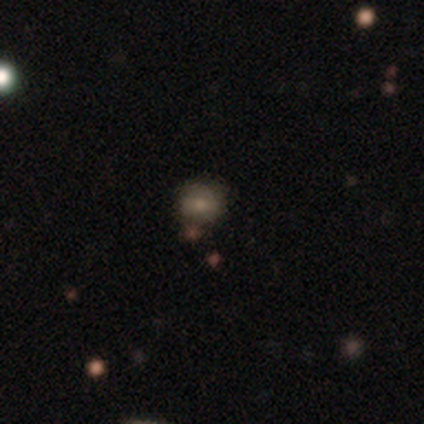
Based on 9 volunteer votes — This appears to be a smooth galaxy with no disk features (56%) that is round (80%). Merging: none (83%).